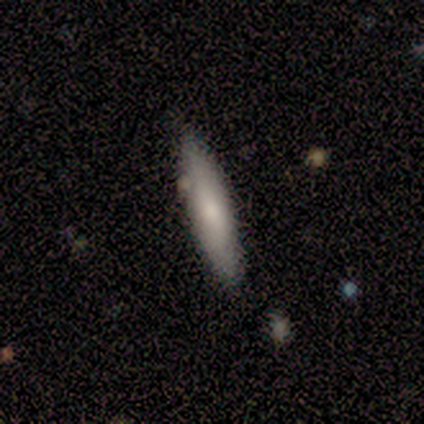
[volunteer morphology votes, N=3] Overall: smooth (67%; featured or disk 33%). How rounded: in between (100%). Merging: none (67%; minor disturbance 33%).